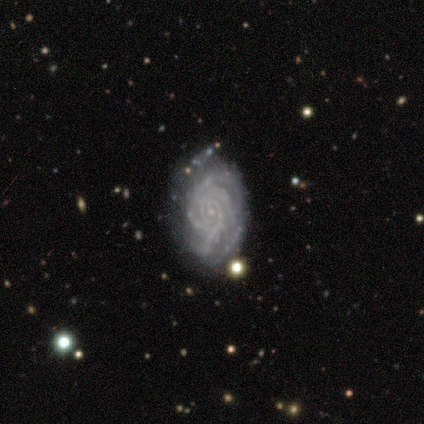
This is clearly a featured or disk galaxy (83%). It is clearly not viewed edge-on (100%). Bar: clearly no (100%). Spiral arm pattern: clearly yes (100%). Spiral arm count: marginally 4 (40%, tied with can't tell). Spiral winding: clearly tight (80%). Central bulge: clearly small (100%). Merging: likely none (67%).